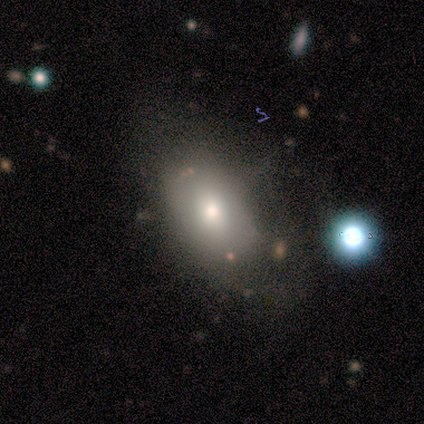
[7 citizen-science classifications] Q: Smooth or featured?
A: smooth (57%); runner-up: featured or disk (43%)
Q: How rounded?
A: round (50%); tied with: in between (50%)
Q: Merging?
A: none (43%); tied with: minor disturbance (43%)